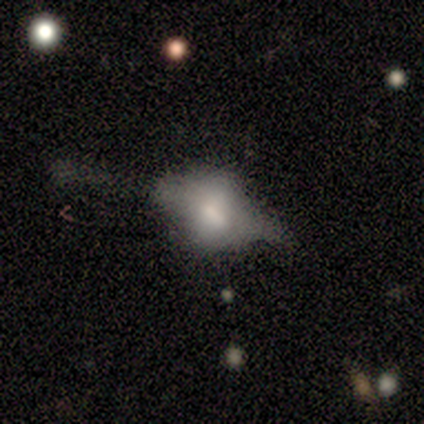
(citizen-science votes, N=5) Morphology: type=smooth (80%); roundness=round (50%, tied with in between); merging=none (40%, tied with major disturbance).